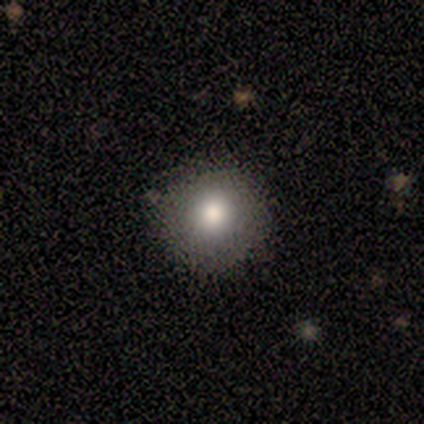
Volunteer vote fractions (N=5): A smooth galaxy with no disk features (60%) that is round (100%).

Vote fractions:
- Smooth or featured? smooth: 60% / featured or disk: 20% / star or artifact: 20%
- How rounded? round: 100% / in between: 0% / cigar-shaped: 0%
- Merging? none: 100% / minor disturbance: 0% / major disturbance: 0% / merger: 0%